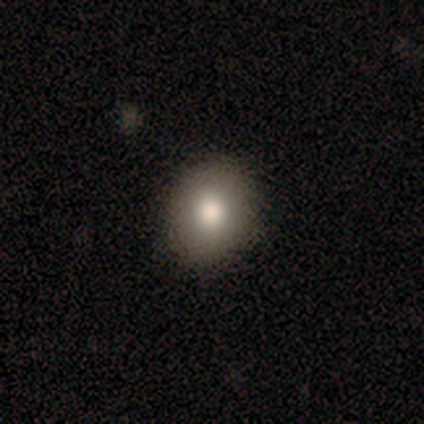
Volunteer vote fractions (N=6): Morphology: type=smooth (67%); roundness=round (75%); merging=none (100%).